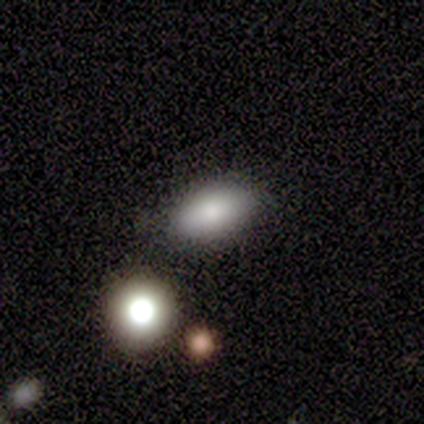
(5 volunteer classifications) Q: Smooth or featured?
A: smooth (100%)
Q: How rounded?
A: in between (100%)
Q: Merging?
A: none (60%); runner-up: minor disturbance (40%)